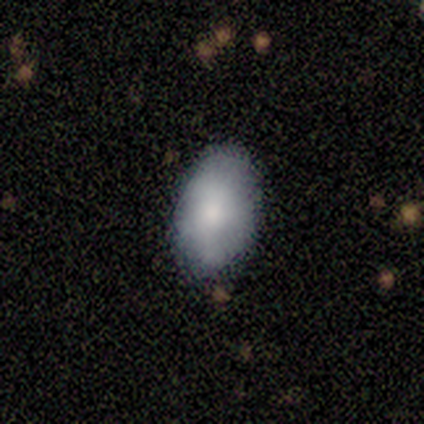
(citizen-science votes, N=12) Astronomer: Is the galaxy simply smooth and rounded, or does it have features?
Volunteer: smooth — 67%.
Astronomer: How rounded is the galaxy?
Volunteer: in between — 88%.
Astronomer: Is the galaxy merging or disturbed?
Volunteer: none — 75%.